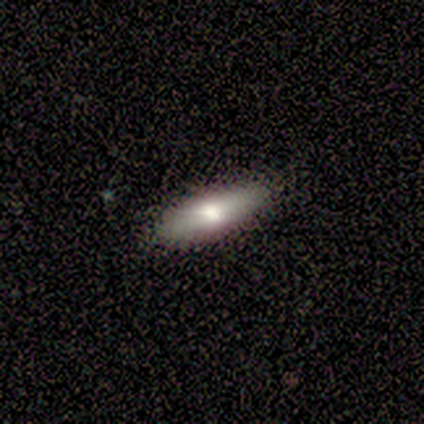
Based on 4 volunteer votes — A smooth galaxy with no disk features (100%) that is cigar-shaped (100%).

Vote fractions:
- Smooth or featured? smooth: 100% / featured or disk: 0% / star or artifact: 0%
- How rounded? cigar-shaped: 100% / round: 0% / in between: 0%
- Merging? none: 100% / minor disturbance: 0% / major disturbance: 0% / merger: 0%